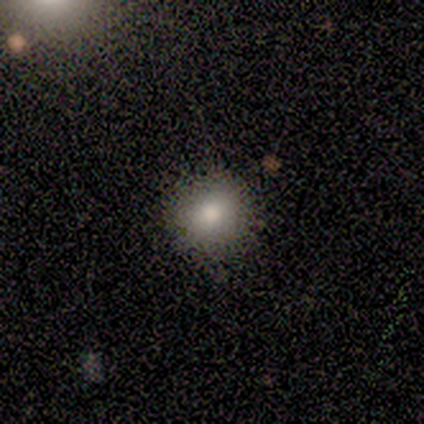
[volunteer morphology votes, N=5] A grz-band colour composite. It shows a smooth galaxy with no disk features (80%) that is round (100%). Merging: none (80%).